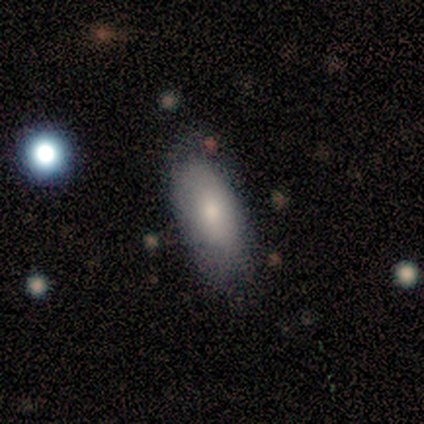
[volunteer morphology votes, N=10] Q: Smooth or featured?
A: smooth (80%); runner-up: featured or disk (10%)
Q: How rounded?
A: in between (100%)
Q: Merging?
A: none (56%); runner-up: minor disturbance (33%)